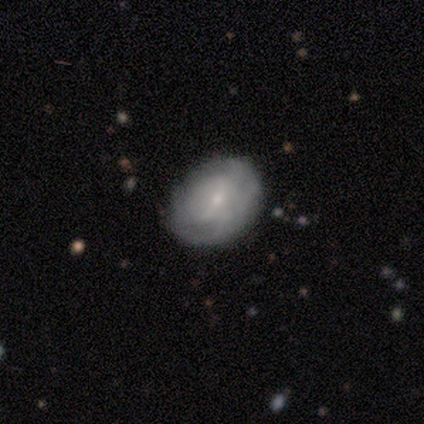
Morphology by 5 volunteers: Smooth or featured? 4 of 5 (80%) said smooth. How rounded? 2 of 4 (50%, tied with in between) said round. Merging? 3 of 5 (60%) said none.